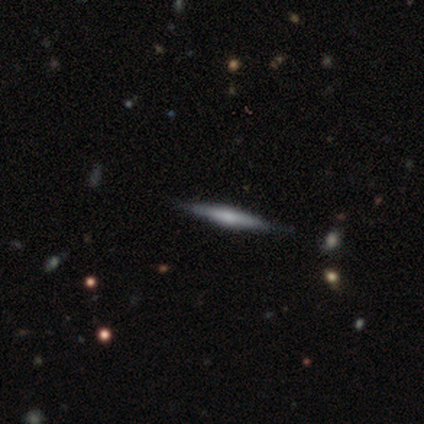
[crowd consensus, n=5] Morphology: type=featured or disk (60%); edge-on=yes (100%); edge-on bulge=rounded (67%); merging=none (100%).